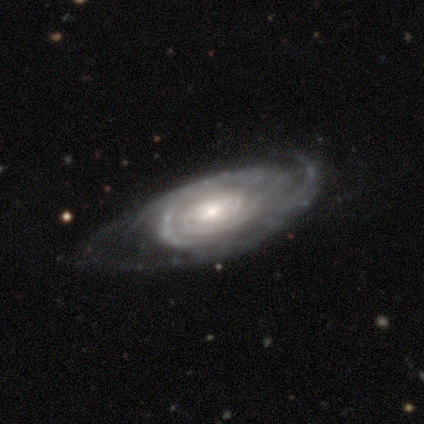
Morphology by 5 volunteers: Smooth or featured? featured or disk (100%)
Edge-on disk? no (80%)
Bar? weak (50%, tied with no)
Spiral arms? yes (100%)
Spiral winding? tight (100%)
Spiral arm count? 2 (50%)
Bulge size? moderate (50%, tied with small)
Merging? none (60%)